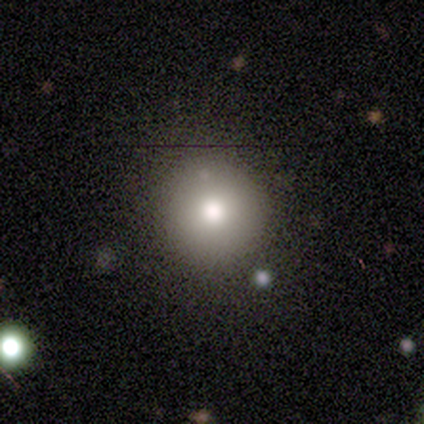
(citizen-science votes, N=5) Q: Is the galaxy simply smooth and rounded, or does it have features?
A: smooth — 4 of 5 (80%).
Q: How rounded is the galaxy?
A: round — 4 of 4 (100%).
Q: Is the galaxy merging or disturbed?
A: none — 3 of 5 (60%).